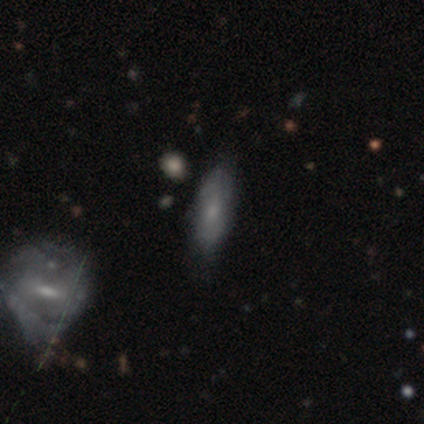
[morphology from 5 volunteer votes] smooth-or-featured: smooth: 60% | featured or disk: 40% | star or artifact: 0%
  how-rounded: in between: 67% | cigar-shaped: 33% | round: 0%
  merging: none: 100% | minor disturbance: 0% | major disturbance: 0% | merger: 0%